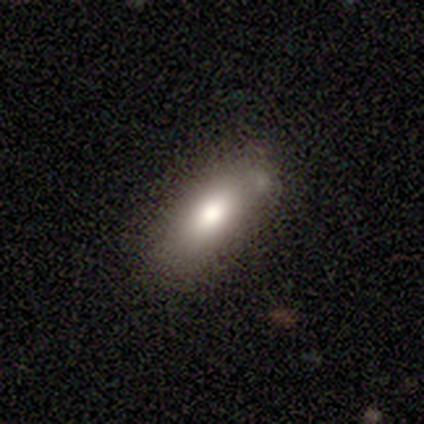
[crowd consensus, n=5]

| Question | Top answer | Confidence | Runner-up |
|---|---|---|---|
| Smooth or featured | smooth | 100% | — |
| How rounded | in between | 100% | — |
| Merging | none | 80% | minor disturbance (20%) |